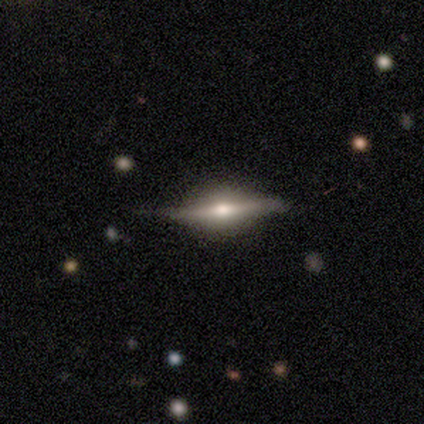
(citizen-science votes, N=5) Smooth or featured?
  - featured or disk: 80% *
  - star or artifact: 20%
  - smooth: 0%
Edge-on disk?
  - yes: 75% *
  - no: 25%
Edge-on bulge?
  - rounded: 100% *
  - boxy: 0%
  - none: 0%
Merging?
  - none: 50% *
  - minor disturbance: 25%
  - major disturbance: 25%
  - merger: 0%